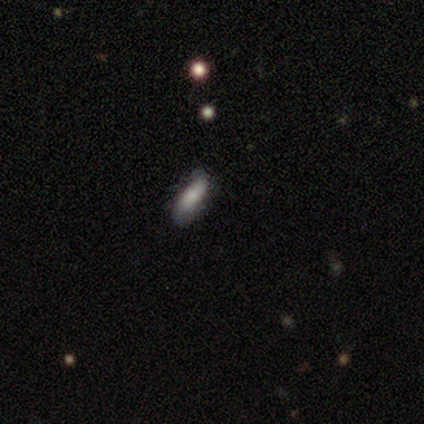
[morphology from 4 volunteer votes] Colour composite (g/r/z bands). It shows a smooth galaxy with no disk features (100%) that is in between round and cigar-shaped (75%). Merging: none (75%).